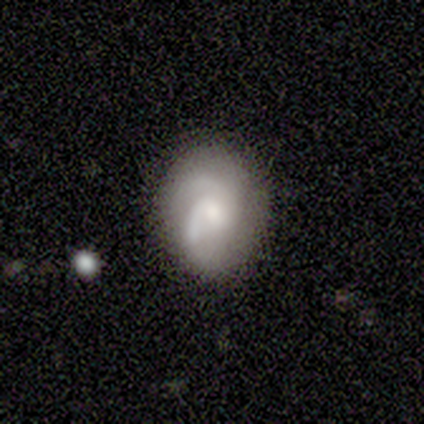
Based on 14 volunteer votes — Volunteers were most divided on "bulge size" (2-way tie): moderate: 42%, small: 42%, large: 17%, dominant: 0%, none: 0%. Remaining: edge-on disk — no (100%); spiral arms — yes (92%); smooth or featured — featured or disk (86%); merging — none (79%); bar — weak (58%); spiral arm count — 2 (55%); spiral winding — tight (45%).